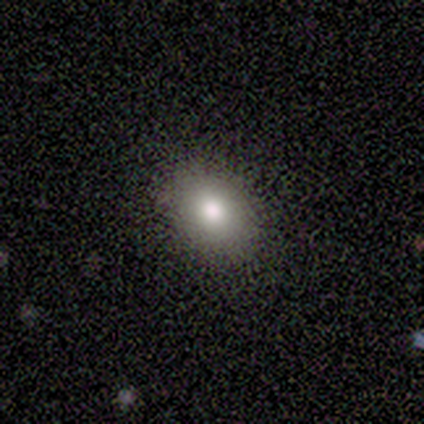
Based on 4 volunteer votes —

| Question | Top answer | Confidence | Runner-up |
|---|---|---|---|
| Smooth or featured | smooth | 50% | featured or disk (25%) |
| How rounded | round | 50% | tied: in between (50%) |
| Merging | none | 100% | — |